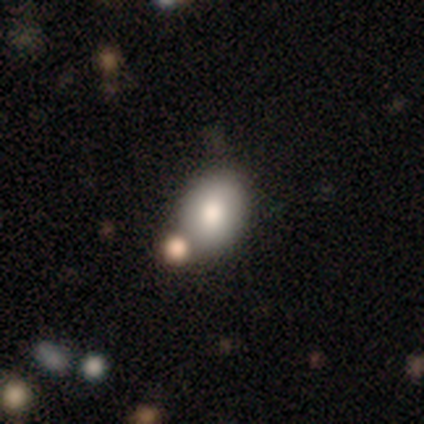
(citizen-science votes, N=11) Smooth or featured? 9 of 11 (82%) said smooth. How rounded? 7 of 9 (78%) said in between. Merging? 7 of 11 (64%) said none.